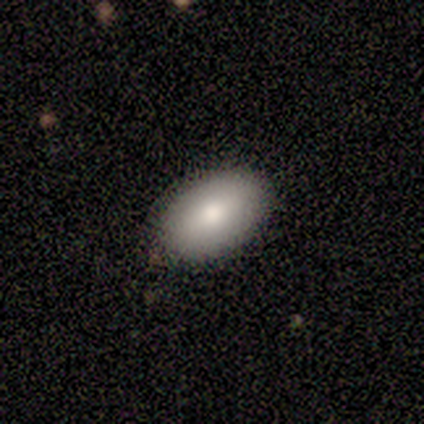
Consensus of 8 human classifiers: smooth_or_featured: smooth (p=1.00)
how_rounded: in between (p=1.00)
merging: none (p=0.88) [alt: minor disturbance p=0.12]